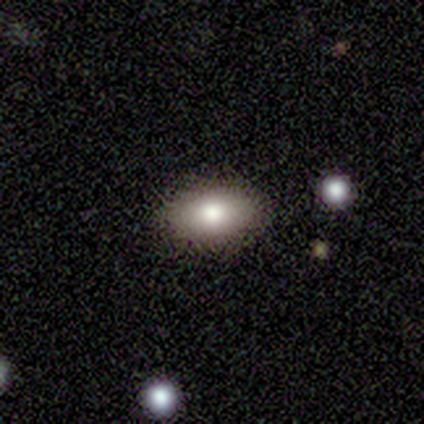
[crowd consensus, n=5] This appears to be a smooth galaxy with no disk features (80%) that is in between round and cigar-shaped (100%). Merging: none (100%).